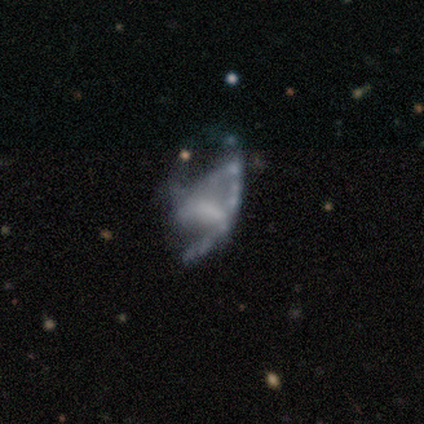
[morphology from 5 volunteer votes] Smooth or featured? featured or disk (60%)
Edge-on disk? no (100%)
Bar? no (100%)
Spiral arms? no (100%)
Bulge size? none (100%)
Merging? major disturbance (100%)